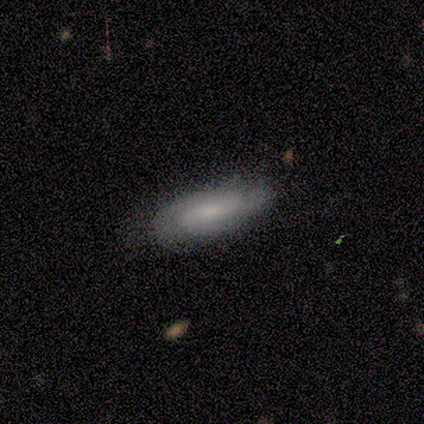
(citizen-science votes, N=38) Smooth or featured: smooth — 55% (featured or disk — 42%)
How rounded: in between — 57% (cigar-shaped — 43%)
Merging: none — 57% (minor disturbance — 5%)